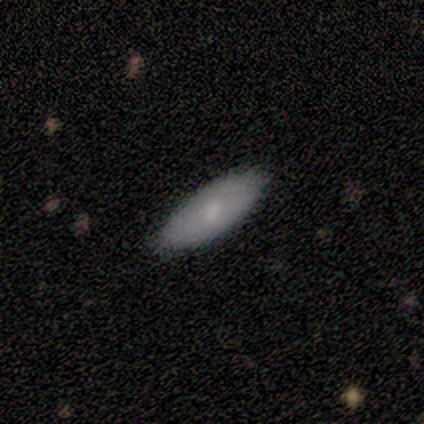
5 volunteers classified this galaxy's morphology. type=smooth (100%); roundness=in between (80%); merging=none (80%).